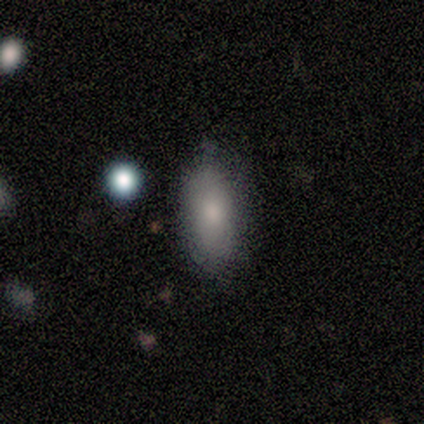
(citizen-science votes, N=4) smooth_or_featured: smooth (p=1.00)
how_rounded: in between (p=0.75) [alt: cigar-shaped p=0.25]
merging: none (p=1.00)